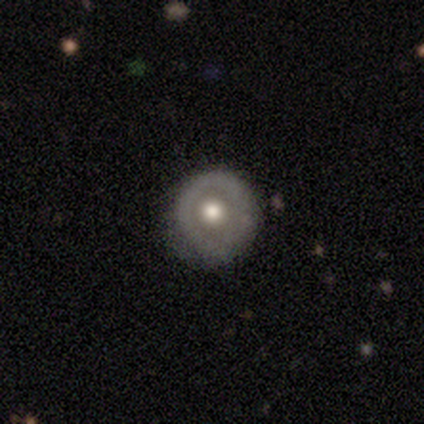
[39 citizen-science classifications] smooth 54%, featured or disk 44%, star or artifact 3%. Down the decision tree: how rounded — round (90%); merging — none (82%).